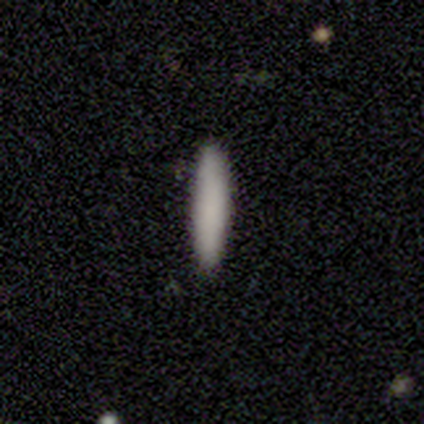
This appears to be a smooth galaxy with no disk features (100%) that is cigar-shaped (80%). Merging: none (80%).